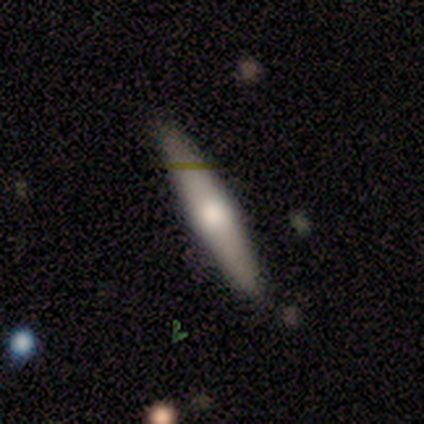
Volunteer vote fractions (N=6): smooth_or_featured: featured or disk (p=0.83) [alt: smooth p=0.17]
disk_edge_on: yes (p=0.80) [alt: no p=0.20]
edge_on_bulge: rounded (p=1.00)
merging: none (p=0.67) [alt: minor disturbance p=0.17]